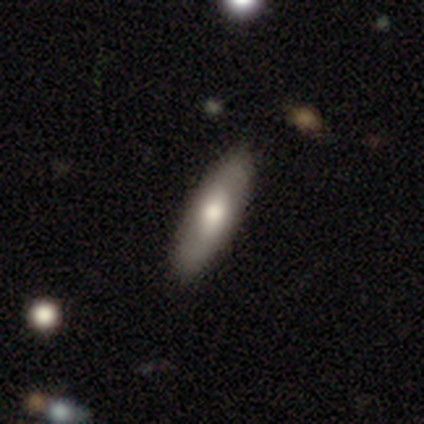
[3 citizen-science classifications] This is likely a featured or disk galaxy (67%). It is clearly not viewed edge-on (100%). Bar: clearly no (100%). Spiral arm pattern: clearly no (100%). Central bulge: clearly moderate (100%). Merging: clearly none (100%).